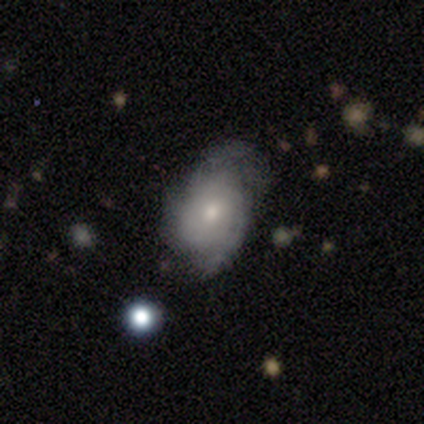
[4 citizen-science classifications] Overall: featured or disk (100%). Edge-on disk: no (75%). Bar: no (100%). Spiral arms: yes (67%; no 33%). Spiral arm count: 2 (50%, tied with can't tell). Spiral winding: tight (100%). Bulge size: large (33%, tied with moderate and small). Merging: none (50%; minor disturbance 25%).